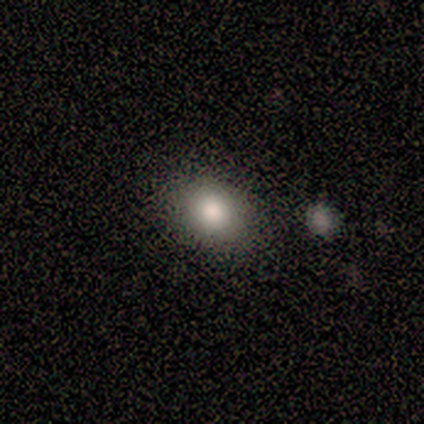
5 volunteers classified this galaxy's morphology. A smooth galaxy with no disk features (80%) that is round (75%).

Vote fractions:
- Smooth or featured? smooth: 80% / star or artifact: 20% / featured or disk: 0%
- How rounded? round: 75% / in between: 25% / cigar-shaped: 0%
- Merging? none: 100% / minor disturbance: 0% / major disturbance: 0% / merger: 0%